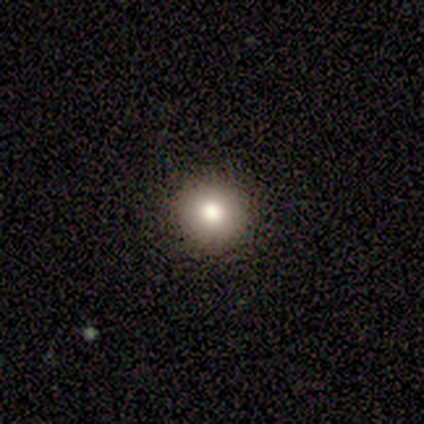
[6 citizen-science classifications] This appears to be a star or artifact, not a galaxy (50%).